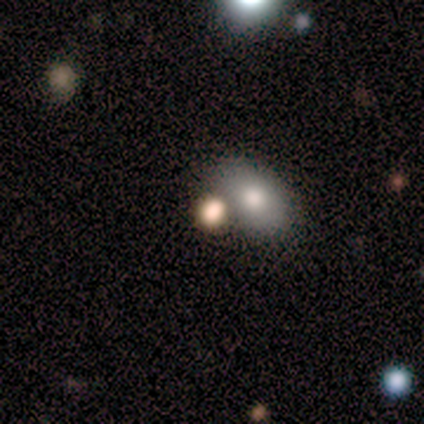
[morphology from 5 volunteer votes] This appears to be a smooth galaxy with no disk features (40%, tied with star or artifact) that is in between round and cigar-shaped (100%). Merging: major disturbance (67%).